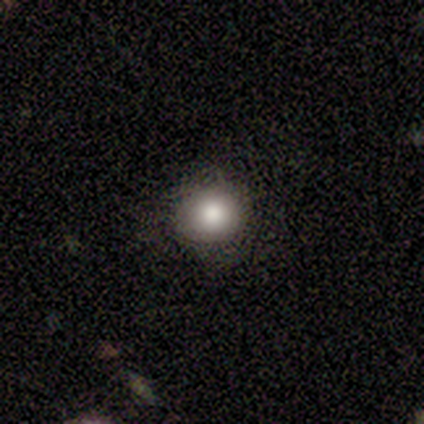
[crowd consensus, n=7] This appears to be a smooth galaxy with no disk features (71%) that is round (60%). Merging: none (100%).